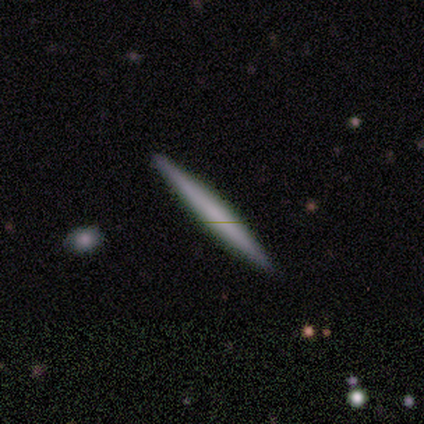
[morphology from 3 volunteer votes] Smooth or featured: smooth — 100%
How rounded: cigar-shaped — 100%
Merging: none — 100%